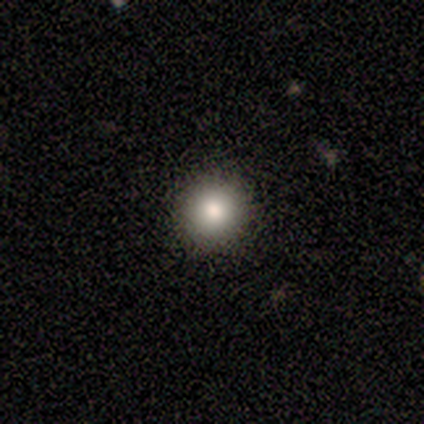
A smooth galaxy with no disk features (75%) that is round (100%). Merging: none (100%).